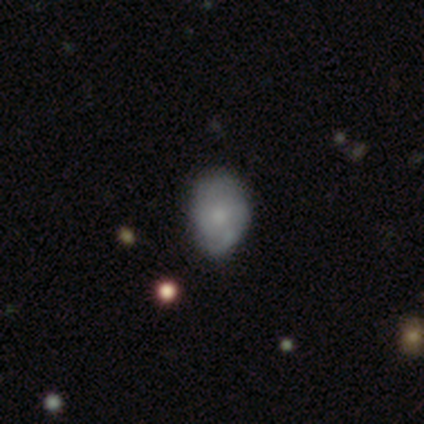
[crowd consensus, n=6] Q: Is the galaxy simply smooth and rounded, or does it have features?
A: featured or disk — 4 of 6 (67%).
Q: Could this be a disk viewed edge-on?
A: no — 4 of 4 (100%).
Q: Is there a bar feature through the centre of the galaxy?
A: no — 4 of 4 (100%).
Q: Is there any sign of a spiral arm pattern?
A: yes — 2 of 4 (50%, tied with no).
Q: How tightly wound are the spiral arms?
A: medium — 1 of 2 (50%, tied with loose).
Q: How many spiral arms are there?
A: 4 — 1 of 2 (50%, tied with can't tell).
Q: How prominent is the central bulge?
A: moderate — 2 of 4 (50%).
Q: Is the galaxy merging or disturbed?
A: none — 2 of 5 (40%, tied with minor disturbance).